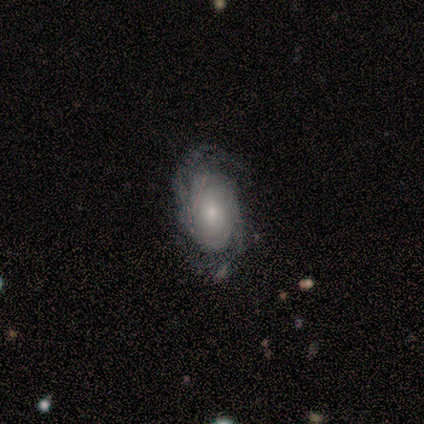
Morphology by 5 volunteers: type=featured or disk (60%); edge-on=no (100%); bar=no (100%); spiral arms=yes (100%); winding=medium (67%); arm count=2 (33%, tied with 3 and can't tell); bulge=moderate (67%); merging=none (100%).